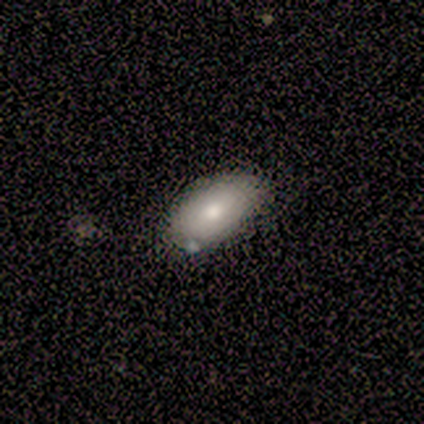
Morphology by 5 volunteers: Q: Smooth or featured?
A: smooth (100%)
Q: How rounded?
A: in between (100%)
Q: Merging?
A: none (80%); runner-up: minor disturbance (20%)